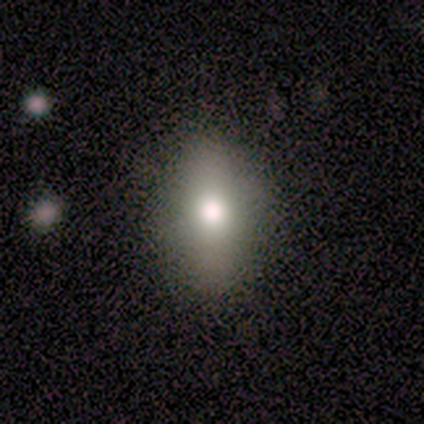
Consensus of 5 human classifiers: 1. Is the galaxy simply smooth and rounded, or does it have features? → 60% smooth, 20% featured or disk, 20% star or artifact.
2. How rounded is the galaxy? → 67% in between, 33% round, 0% cigar-shaped.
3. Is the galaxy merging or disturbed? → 75% none, 25% minor disturbance, 0% major disturbance, 0% merger.